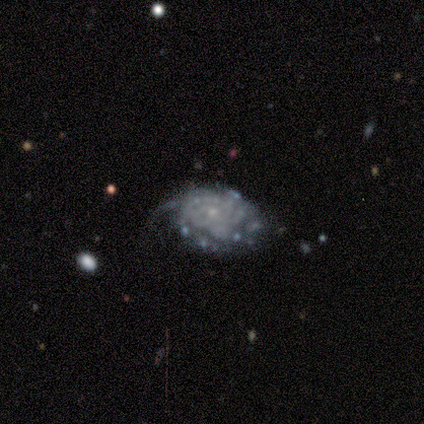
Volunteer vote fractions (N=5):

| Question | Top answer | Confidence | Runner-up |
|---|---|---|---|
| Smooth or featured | featured or disk | 80% | smooth (20%) |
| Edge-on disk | no | 100% | — |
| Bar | no | 100% | — |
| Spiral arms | no | 75% | yes (25%) |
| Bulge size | small | 75% | none (25%) |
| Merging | major disturbance | 60% | none (20%) |